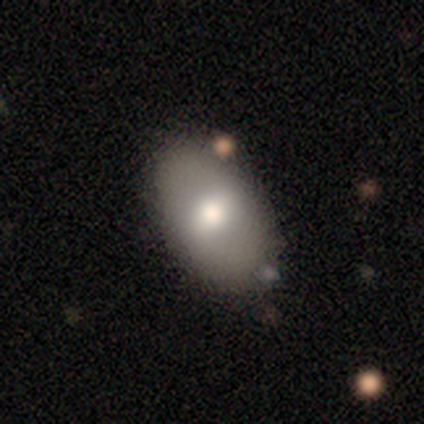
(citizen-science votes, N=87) Q: Smooth or featured?
A: smooth (78%); runner-up: featured or disk (15%)
Q: How rounded?
A: in between (90%); runner-up: round (10%)
Q: Merging?
A: none (77%); runner-up: minor disturbance (15%)